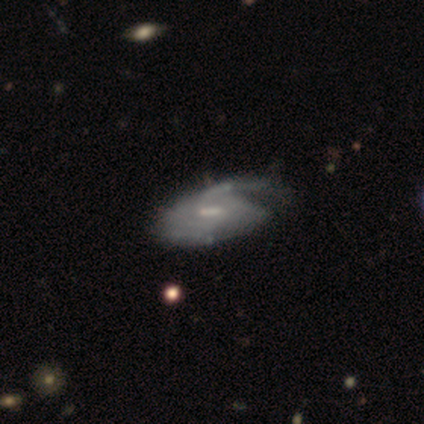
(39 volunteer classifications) Morphology: type=featured or disk (87%); edge-on=no (91%); bar=weak (61%); spiral arms=yes (77%); winding=medium (50%); arm count=can't tell (58%); bulge=small (42%); merging=major disturbance (27%).